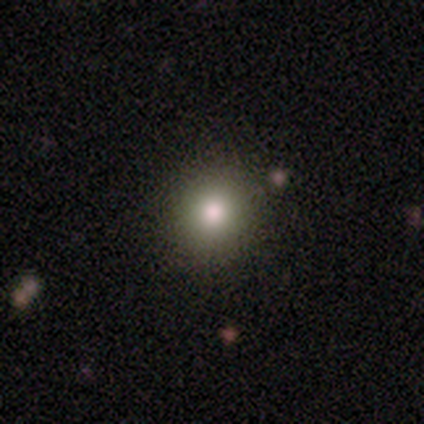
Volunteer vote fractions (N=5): smooth_or_featured: smooth (p=0.80) [alt: star or artifact p=0.20]
how_rounded: round (p=1.00)
merging: none (p=1.00)